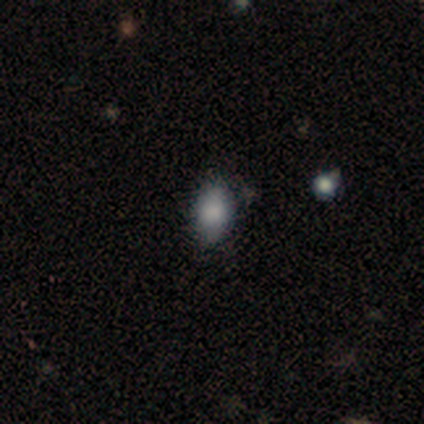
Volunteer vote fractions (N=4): Overall: smooth (75%). How rounded: in between (100%). Merging: none (75%).